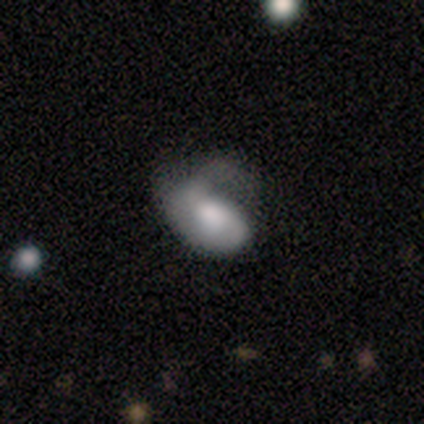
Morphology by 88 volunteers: smooth_or_featured: smooth (p=0.48) [alt: featured or disk p=0.45]
how_rounded: in between (p=0.90) [alt: round p=0.05]
merging: major disturbance (p=0.52) [alt: minor disturbance p=0.24]